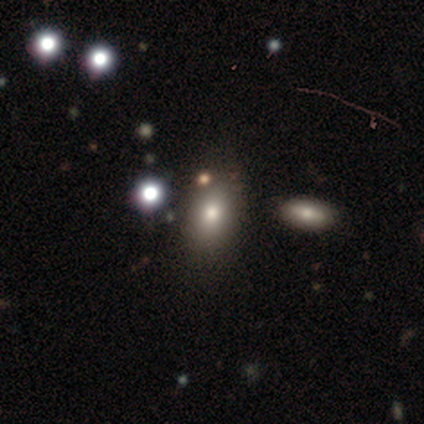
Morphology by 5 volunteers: Q: Smooth or featured?
A: smooth (80%); runner-up: star or artifact (20%)
Q: How rounded?
A: in between (75%); runner-up: round (25%)
Q: Merging?
A: none (75%); runner-up: merger (25%)